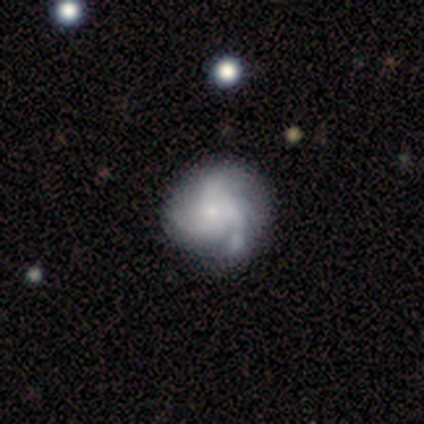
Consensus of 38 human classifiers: Smooth or featured: featured or disk — 95% (smooth — 3%)
Edge-on disk: no — 100%
Bar: no — 92% (weak — 8%)
Spiral arms: yes — 92% (no — 8%)
Spiral winding: medium — 42% (loose — 30%)
Spiral arm count: 3 — 58% (4 — 21%)
Bulge size: small — 69% (moderate — 19%)
Merging: none — 41% (minor disturbance — 16%)